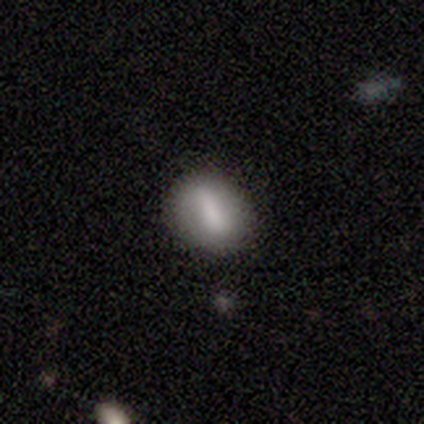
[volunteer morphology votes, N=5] smooth_or_featured: smooth (p=0.80) [alt: featured or disk p=0.20]
how_rounded: in between (p=1.00)
merging: minor disturbance (p=0.80) [alt: none p=0.20]